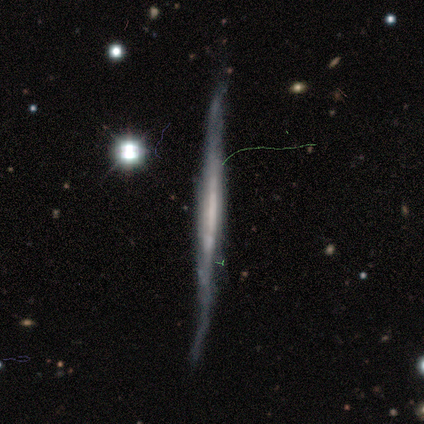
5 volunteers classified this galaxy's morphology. Smooth or featured? 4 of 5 (80%) said featured or disk. Edge-on disk? 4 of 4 (100%) said yes. Edge-on bulge? 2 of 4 (50%) said boxy. Merging? 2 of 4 (50%) said none.